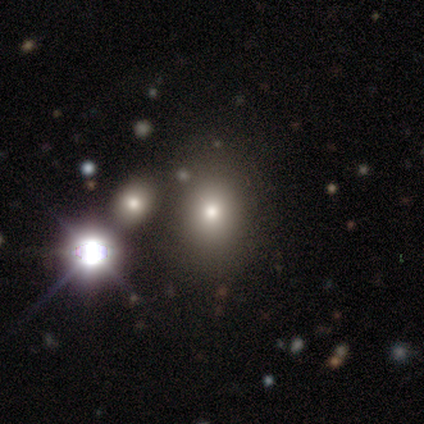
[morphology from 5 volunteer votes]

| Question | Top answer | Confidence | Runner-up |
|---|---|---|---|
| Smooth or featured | smooth | 40% | tied: star or artifact (40%) |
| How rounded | in between | 100% | — |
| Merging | none | 100% | — |